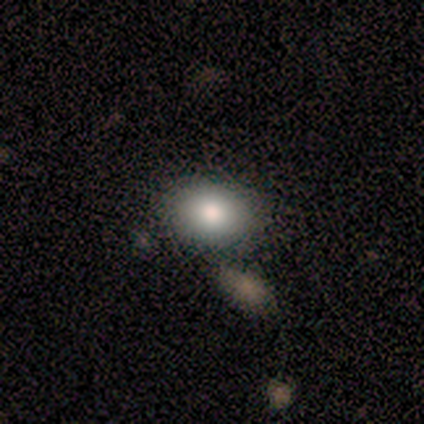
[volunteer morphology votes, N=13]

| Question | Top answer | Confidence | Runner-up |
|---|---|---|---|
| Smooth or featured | smooth | 77% | featured or disk (15%) |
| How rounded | in between | 60% | round (40%) |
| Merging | none | 83% | minor disturbance (8%) |